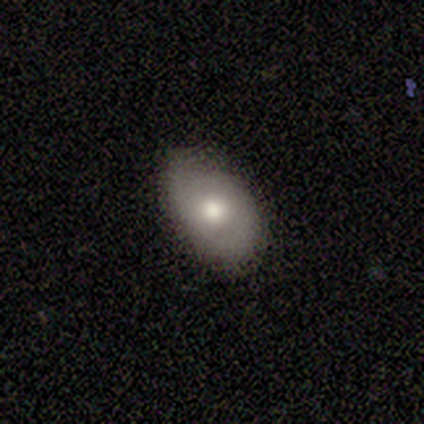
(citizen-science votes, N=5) This is likely a smooth galaxy (60%). How rounded: clearly in between (100%). Merging: likely none (60%).